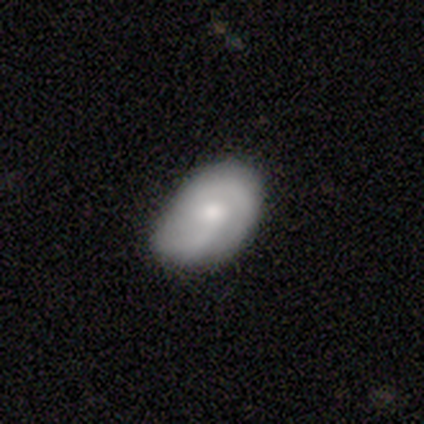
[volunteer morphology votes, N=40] Q: Smooth or featured?
A: featured or disk (57%); runner-up: smooth (38%)
Q: Edge-on disk?
A: no (96%); runner-up: yes (4%)
Q: Bar?
A: no (82%); runner-up: weak (18%)
Q: Spiral arms?
A: yes (91%); runner-up: no (9%)
Q: Spiral winding?
A: tight (50%); runner-up: medium (45%)
Q: Spiral arm count?
A: 2 (80%); runner-up: can't tell (15%)
Q: Bulge size?
A: moderate (86%); runner-up: large (9%)
Q: Merging?
A: none (45%); runner-up: minor disturbance (16%)